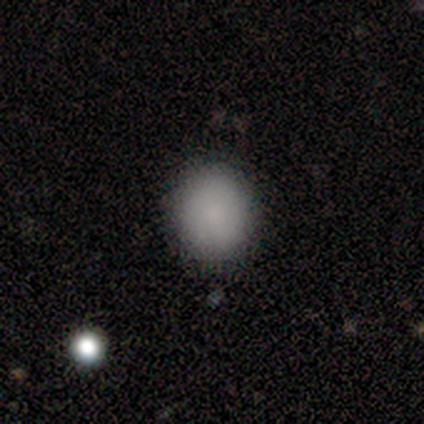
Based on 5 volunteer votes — This is clearly a smooth galaxy (100%). How rounded: likely round (60%). Merging: clearly none (80%).